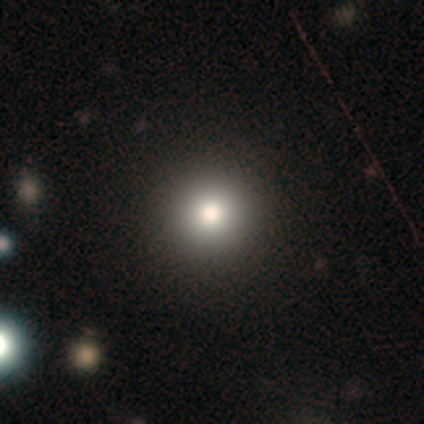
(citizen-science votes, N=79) Smooth or featured: smooth — 84% (star or artifact — 14%)
How rounded: round — 100%
Merging: none — 46% (minor disturbance — 1%)